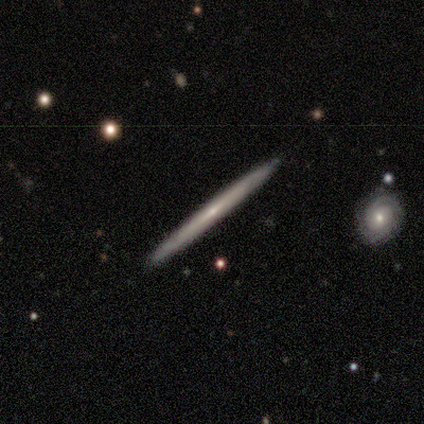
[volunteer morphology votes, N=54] Smooth or featured?
  - featured or disk: 72% *
  - smooth: 22%
  - star or artifact: 6%
Edge-on disk?
  - yes: 97% *
  - no: 3%
Edge-on bulge?
  - none: 71% *
  - rounded: 26%
  - boxy: 3%
Merging?
  - none: 94% *
  - minor disturbance: 4%
  - merger: 2%
  - major disturbance: 0%